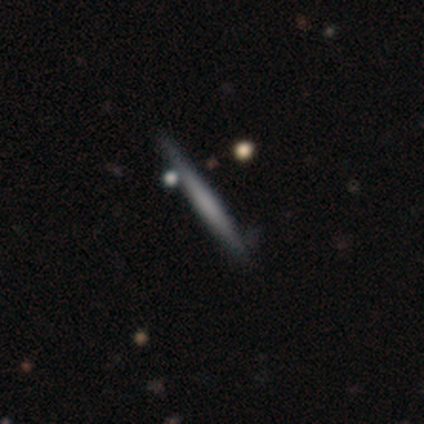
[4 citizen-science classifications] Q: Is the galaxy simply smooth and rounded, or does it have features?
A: smooth — 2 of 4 (50%, tied with featured or disk).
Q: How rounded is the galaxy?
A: cigar-shaped — 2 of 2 (100%).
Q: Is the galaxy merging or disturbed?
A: none — 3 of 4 (75%).